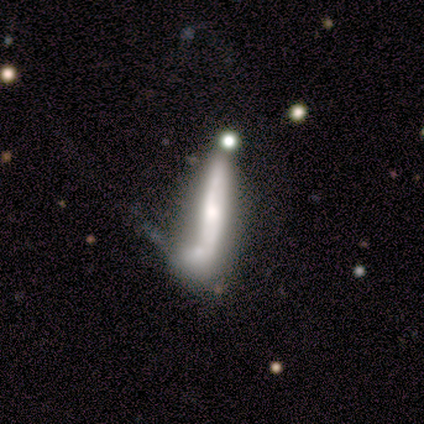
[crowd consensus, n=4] smooth 50% (tied), featured or disk 50% (tied), star or artifact 0%. Down the decision tree: how rounded — cigar-shaped (100%); merging — merger (75%).